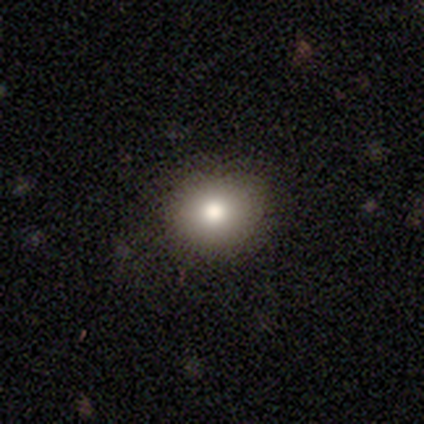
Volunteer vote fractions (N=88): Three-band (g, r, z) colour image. It shows a smooth galaxy with no disk features (75%) that is round (76%). Merging: none (82%).